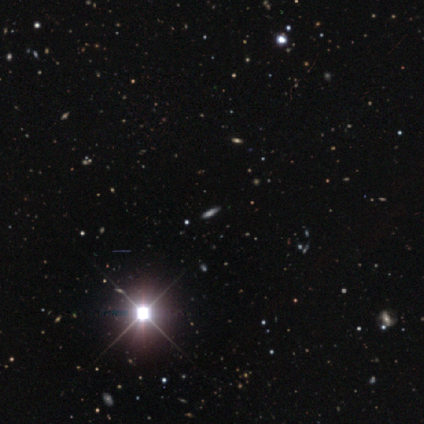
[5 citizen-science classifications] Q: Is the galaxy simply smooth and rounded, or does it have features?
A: star or artifact — 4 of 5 (80%).